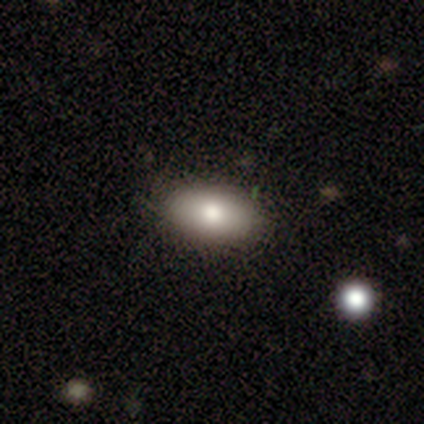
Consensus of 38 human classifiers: This appears to be a smooth galaxy with no disk features (84%) that is in between round and cigar-shaped (91%). Merging: none (92%).